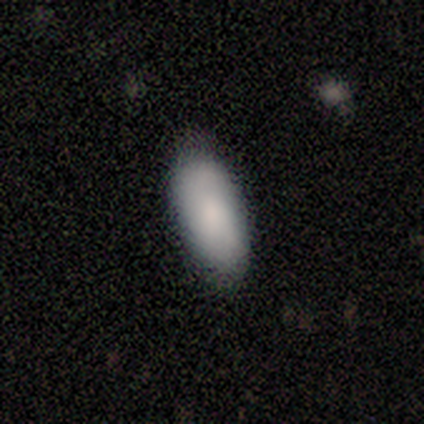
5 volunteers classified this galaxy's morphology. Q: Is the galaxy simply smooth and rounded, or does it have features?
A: smooth — 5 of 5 (100%).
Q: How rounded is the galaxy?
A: in between — 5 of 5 (100%).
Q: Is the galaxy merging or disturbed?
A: none — 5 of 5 (100%).